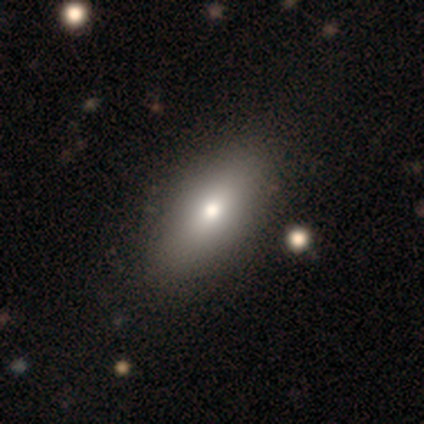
smooth 80%, featured or disk 20%, star or artifact 0%. Down the decision tree: how rounded — in between (75%); merging — none (100%).